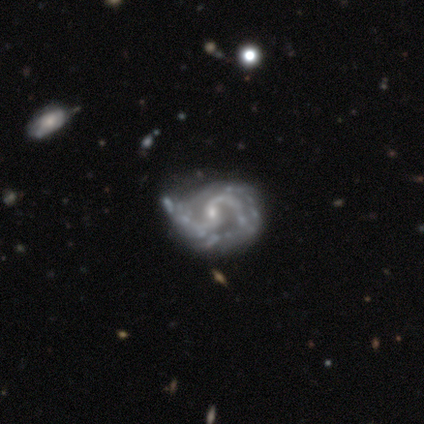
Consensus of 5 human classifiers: This appears to be a featured or disk galaxy (80%) with no bar (75%), 2 (100%) medium (100%) spiral arms (50%, tied with no) and a small central bulge (75%). Merging: minor disturbance (75%).